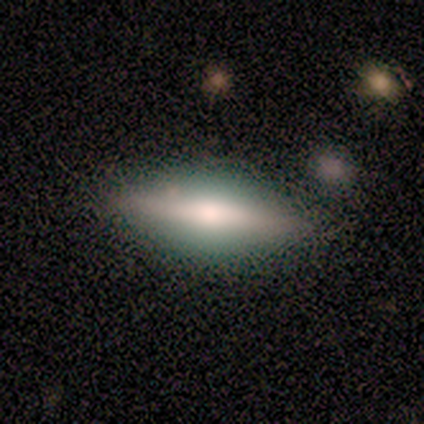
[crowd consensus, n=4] Smooth or featured? 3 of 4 (75%) said featured or disk. Edge-on disk? 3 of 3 (100%) said yes. Edge-on bulge? 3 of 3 (100%) said rounded. Merging? 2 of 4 (50%) said none.